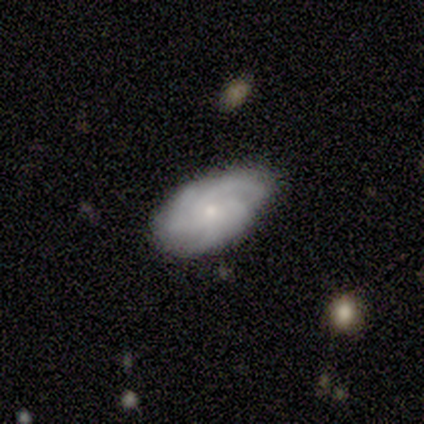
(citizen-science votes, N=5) A featured or disk galaxy (80%) with no bar (100%), 2 (25%, tied with 3, 4 and can't tell) tight (75%) spiral arms (100%) and a small central bulge (75%). Merging: none (80%).